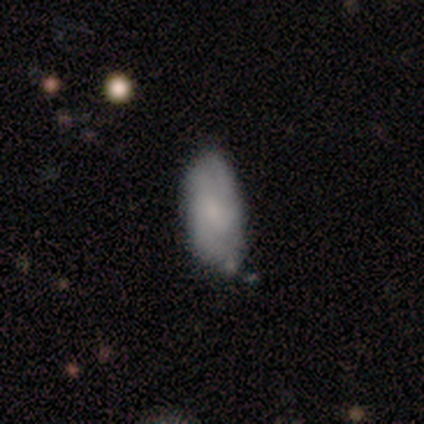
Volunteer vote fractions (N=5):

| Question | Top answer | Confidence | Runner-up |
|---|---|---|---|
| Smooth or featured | smooth | 80% | featured or disk (20%) |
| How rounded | in between | 75% | cigar-shaped (25%) |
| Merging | none | 60% | minor disturbance (40%) |